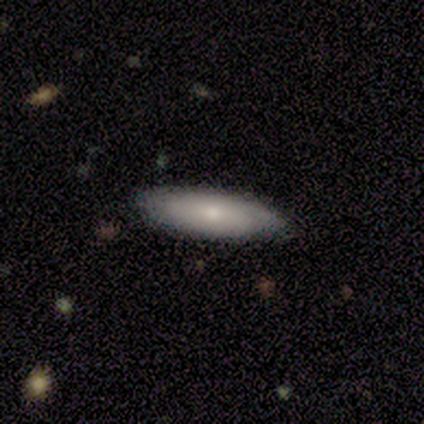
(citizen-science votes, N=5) smooth-or-featured: smooth: 80% | featured or disk: 20% | star or artifact: 0%
  how-rounded: in between: 75% | cigar-shaped: 25% | round: 0%
  merging: none: 80% | minor disturbance: 20% | major disturbance: 0% | merger: 0%